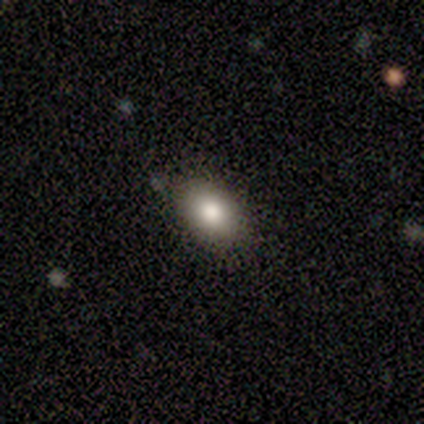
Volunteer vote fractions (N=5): Overall: smooth (100%). How rounded: in between (60%; round 40%). Merging: none (80%).